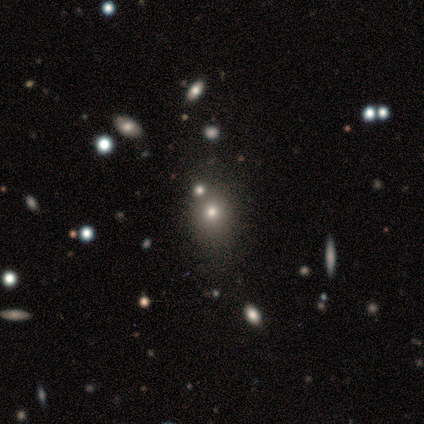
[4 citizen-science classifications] Smooth or featured?
  - featured or disk: 50% * (tied)
  - star or artifact: 50% * (tied)
  - smooth: 0%
Edge-on disk?
  - no: 100% *
  - yes: 0%
Bar?
  - no: 100% *
  - strong: 0%
  - weak: 0%
Spiral arms?
  - no: 100% *
  - yes: 0%
Bulge size?
  - dominant: 50% * (tied)
  - none: 50% * (tied)
  - large: 0%
  - moderate: 0%
  - small: 0%
Merging?
  - none: 100% *
  - minor disturbance: 0%
  - major disturbance: 0%
  - merger: 0%